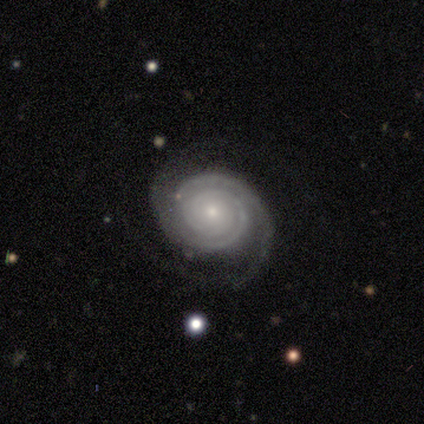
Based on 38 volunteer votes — Smooth or featured? featured or disk (89%)
Edge-on disk? no (100%)
Bar? no (82%)
Spiral arms? yes (100%)
Spiral winding? tight (76%)
Spiral arm count? 2 (79%)
Bulge size? small (88%)
Merging? none (89%)